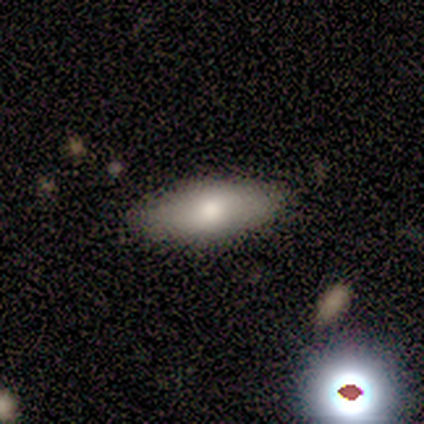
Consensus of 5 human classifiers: Smooth or featured: smooth — 100%
How rounded: in between — 60% (cigar-shaped — 40%)
Merging: none — 100%